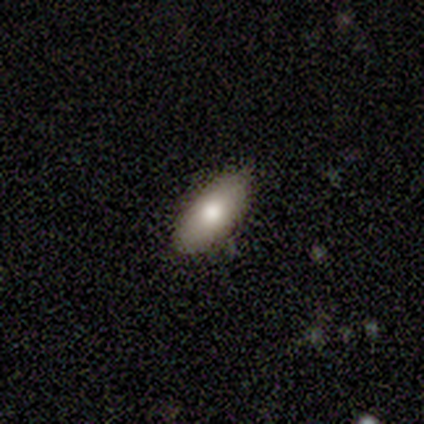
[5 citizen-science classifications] smooth 80%, featured or disk 20%, star or artifact 0%. Down the decision tree: how rounded — in between (100%); merging — none (80%).